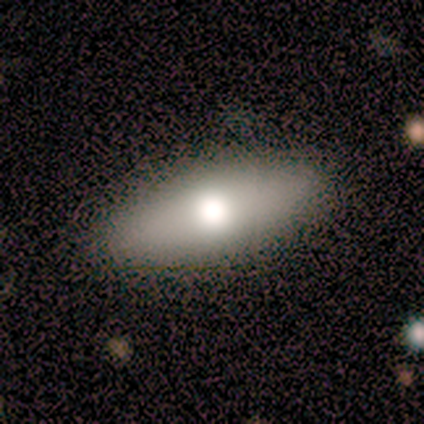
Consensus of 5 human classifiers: Smooth or featured?
  - smooth: 60% *
  - featured or disk: 20%
  - star or artifact: 20%
How rounded?
  - in between: 100% *
  - round: 0%
  - cigar-shaped: 0%
Merging?
  - none: 75% *
  - minor disturbance: 25%
  - major disturbance: 0%
  - merger: 0%